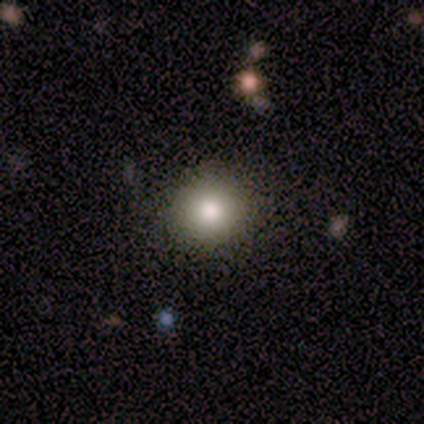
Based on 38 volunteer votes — smooth-or-featured: smooth: 68% | star or artifact: 18% | featured or disk: 13%
  how-rounded: round: 88% | in between: 12% | cigar-shaped: 0%
  merging: none: 94% | minor disturbance: 3% | major disturbance: 3% | merger: 0%